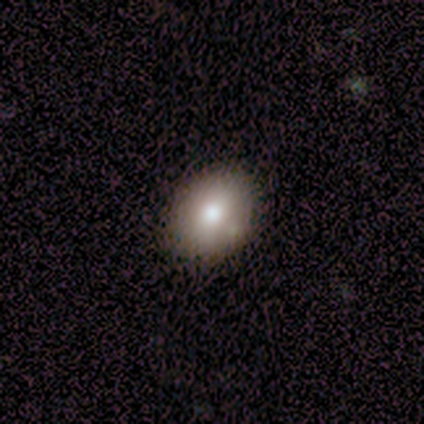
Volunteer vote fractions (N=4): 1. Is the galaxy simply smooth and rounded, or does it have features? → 75% smooth, 25% star or artifact, 0% featured or disk.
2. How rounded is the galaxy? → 67% round, 33% in between, 0% cigar-shaped.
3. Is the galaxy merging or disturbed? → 67% none, 33% minor disturbance, 0% major disturbance, 0% merger.